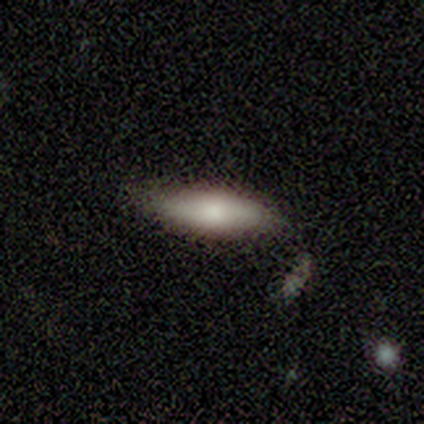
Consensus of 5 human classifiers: smooth 100%, featured or disk 0%, star or artifact 0%. Down the decision tree: how rounded — in between (60%); merging — none (60%).